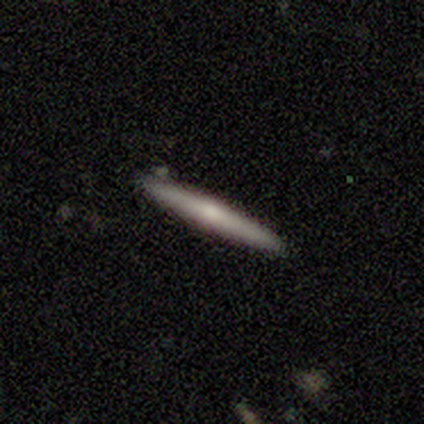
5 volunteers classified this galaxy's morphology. smooth-or-featured: featured or disk: 60% | smooth: 40% | star or artifact: 0%
  disk-edge-on: yes: 100% | no: 0%
    edge-on-bulge: rounded: 100% | boxy: 0% | none: 0%
  merging: none: 100% | minor disturbance: 0% | major disturbance: 0% | merger: 0%